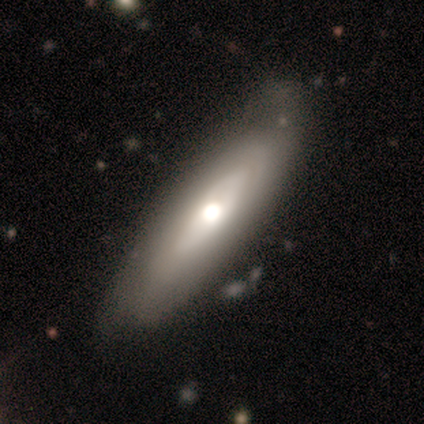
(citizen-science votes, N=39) Smooth or featured: smooth — 59% (featured or disk — 38%)
How rounded: cigar-shaped — 52% (in between — 39%)
Merging: none — 61% (minor disturbance — 34%)